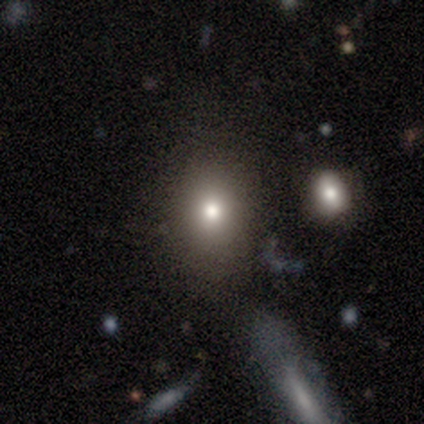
Smooth or featured?
  - smooth: 80% *
  - star or artifact: 20%
  - featured or disk: 0%
How rounded?
  - in between: 100% *
  - round: 0%
  - cigar-shaped: 0%
Merging?
  - none: 75% *
  - minor disturbance: 25%
  - major disturbance: 0%
  - merger: 0%